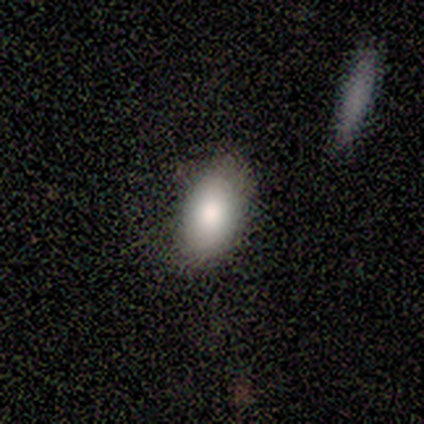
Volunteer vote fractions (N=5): smooth 80%, featured or disk 20%, star or artifact 0%. Down the decision tree: how rounded — in between (75%); merging — none (80%).